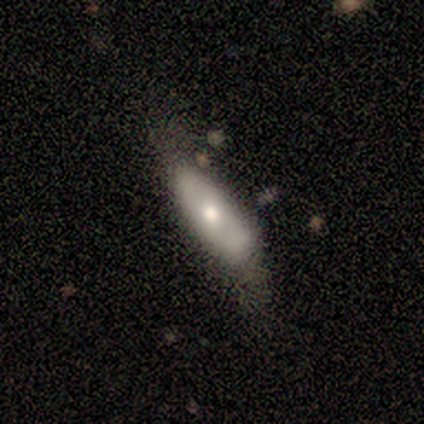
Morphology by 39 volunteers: smooth-or-featured: smooth: 67% | featured or disk: 26% | star or artifact: 8%
  how-rounded: in between: 69% | cigar-shaped: 31% | round: 0%
  merging: none: 50% | minor disturbance: 39% | major disturbance: 11% | merger: 0%